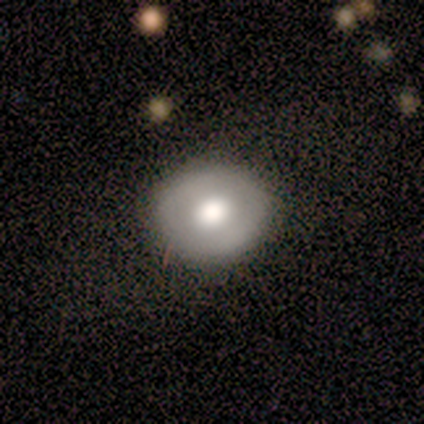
This appears to be a smooth galaxy with no disk features (100%) that is round (60%). Merging: none (80%).